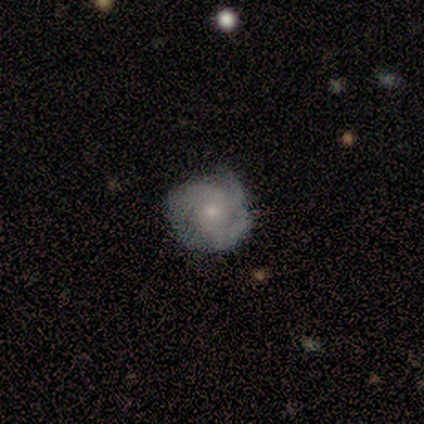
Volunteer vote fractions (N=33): This is likely a featured or disk galaxy (70%). It is clearly not viewed edge-on (100%). Bar: clearly no (87%). Spiral arm pattern: clearly yes (91%). Spiral arm count: possibly 3 (57%). Spiral winding: marginally tight (43%, tied with medium). Central bulge: likely small (65%). Merging: clearly none (84%).